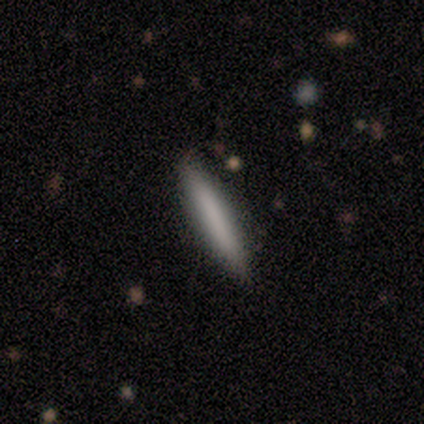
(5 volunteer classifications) This is clearly a smooth galaxy (100%). How rounded: clearly cigar-shaped (100%). Merging: clearly none (100%).